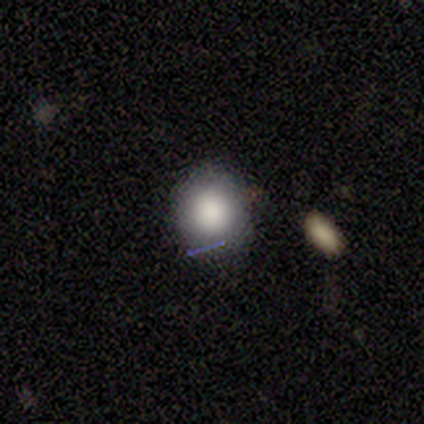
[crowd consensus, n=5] Overall: smooth (100%). How rounded: round (80%). Merging: none (80%).